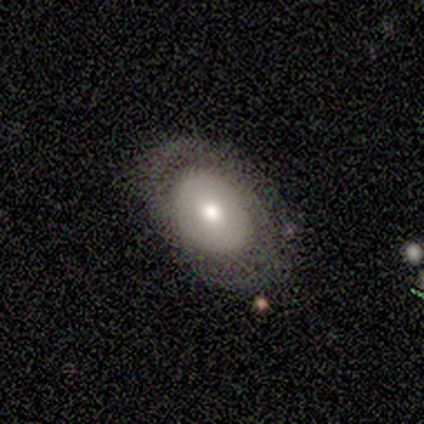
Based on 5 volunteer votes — Smooth or featured?
  - smooth: 60% *
  - featured or disk: 40%
  - star or artifact: 0%
How rounded?
  - in between: 100% *
  - round: 0%
  - cigar-shaped: 0%
Merging?
  - none: 40% * (tied)
  - major disturbance: 40% * (tied)
  - minor disturbance: 20%
  - merger: 0%